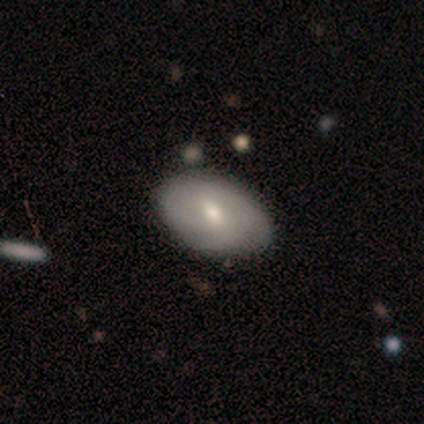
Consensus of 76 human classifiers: Volunteers were most divided on "smooth or featured": smooth: 47%, featured or disk: 46%, star or artifact: 7%. Remaining: how rounded — in between (92%); merging — none (38%).